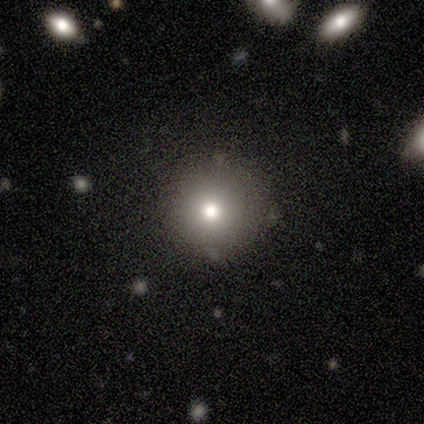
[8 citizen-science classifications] Smooth or featured?
  - smooth: 75% *
  - featured or disk: 12%
  - star or artifact: 12%
How rounded?
  - round: 100% *
  - in between: 0%
  - cigar-shaped: 0%
Merging?
  - none: 100% *
  - minor disturbance: 0%
  - major disturbance: 0%
  - merger: 0%